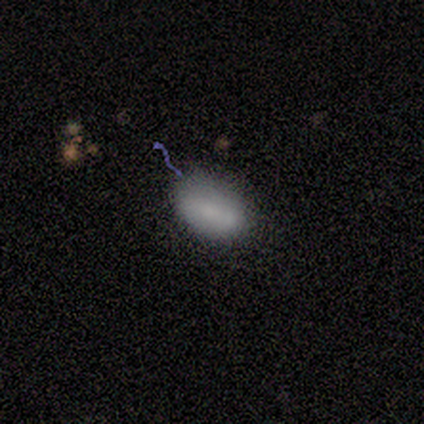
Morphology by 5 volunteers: Q: Smooth or featured?
A: smooth (80%); runner-up: featured or disk (20%)
Q: How rounded?
A: in between (100%)
Q: Merging?
A: none (60%); runner-up: minor disturbance (40%)